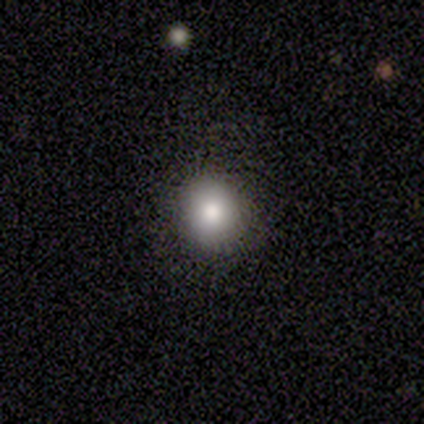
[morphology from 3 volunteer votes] Smooth or featured? 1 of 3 (33%, tied with featured or disk and star or artifact) said smooth. How rounded? 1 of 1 (100%) said round. Merging? 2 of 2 (100%) said none.